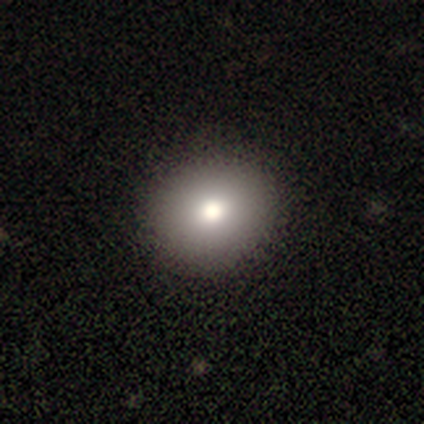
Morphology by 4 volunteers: This is likely a smooth galaxy (75%). How rounded: clearly round (100%). Merging: clearly none (100%).